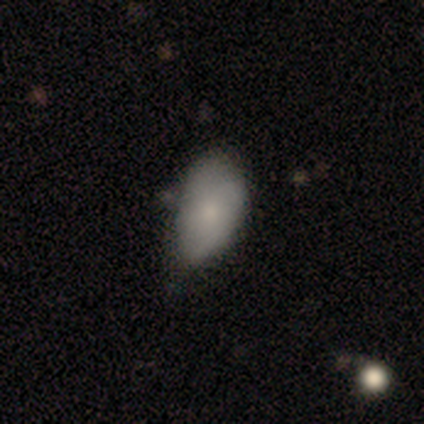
Q: Smooth or featured?
A: smooth (100%)
Q: How rounded?
A: in between (100%)
Q: Merging?
A: none (40%); tied with: minor disturbance (40%)